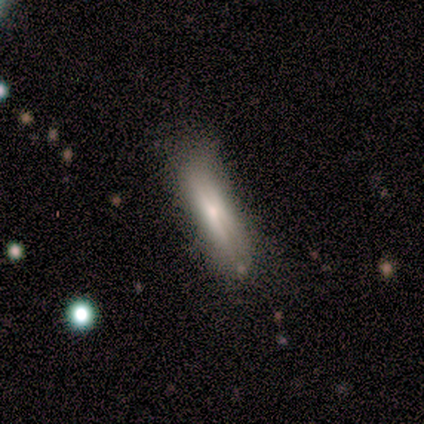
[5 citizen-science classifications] Volunteers were most divided on "how rounded": cigar-shaped: 75%, in between: 25%, round: 0%. More confident: smooth or featured — smooth (80%); merging — none (80%).